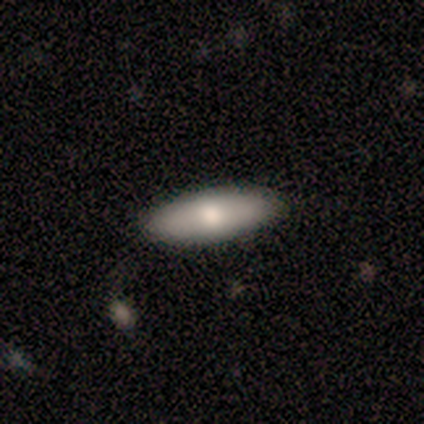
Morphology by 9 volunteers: This appears to be a smooth galaxy with no disk features (89%) that is in between round and cigar-shaped (50%, tied with cigar-shaped). Merging: none (89%).